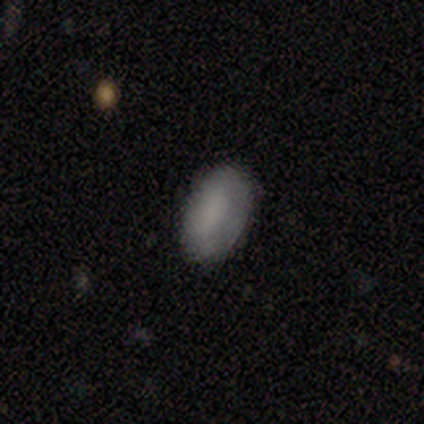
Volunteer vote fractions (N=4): A smooth galaxy with no disk features (100%) that is in between round and cigar-shaped (75%).

Vote fractions:
- Smooth or featured? smooth: 100% / featured or disk: 0% / star or artifact: 0%
- How rounded? in between: 75% / round: 25% / cigar-shaped: 0%
- Merging? none: 100% / minor disturbance: 0% / major disturbance: 0% / merger: 0%